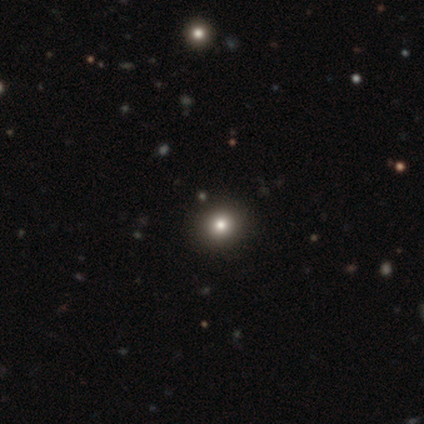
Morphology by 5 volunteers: Q: Smooth or featured?
A: smooth (80%); runner-up: star or artifact (20%)
Q: How rounded?
A: round (100%)
Q: Merging?
A: none (100%)